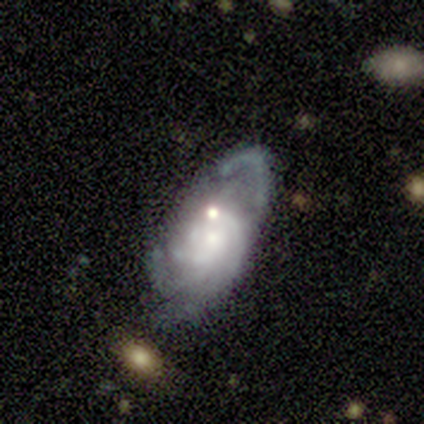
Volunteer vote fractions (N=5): Smooth or featured? 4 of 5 (80%) said featured or disk. Edge-on disk? 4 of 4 (100%) said no. Bar? 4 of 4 (100%) said no. Spiral arms? 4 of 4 (100%) said yes. Spiral winding? 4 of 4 (100%) said tight. Spiral arm count? 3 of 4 (75%) said can't tell. Bulge size? 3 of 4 (75%) said small. Merging? 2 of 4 (50%) said none.